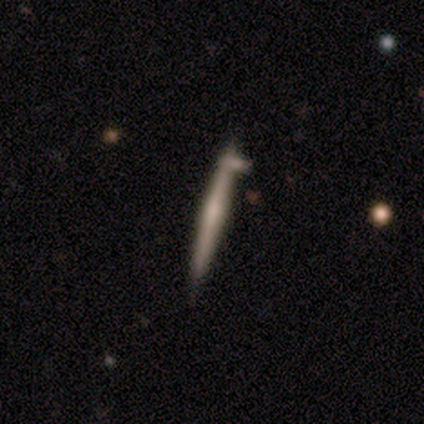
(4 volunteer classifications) Smooth or featured? 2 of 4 (50%, tied with featured or disk) said smooth. How rounded? 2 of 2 (100%) said cigar-shaped. Merging? 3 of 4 (75%) said merger.